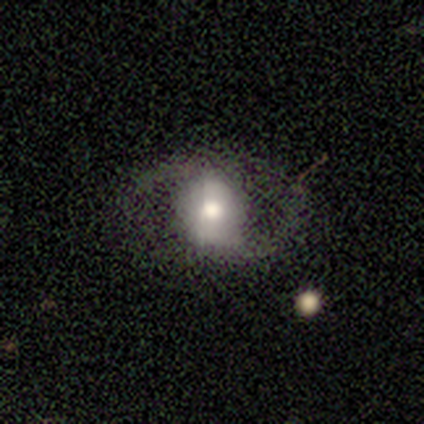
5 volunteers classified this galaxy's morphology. A smooth galaxy with no disk features (40%, tied with featured or disk) that is round (100%). Merging: minor disturbance (50%).